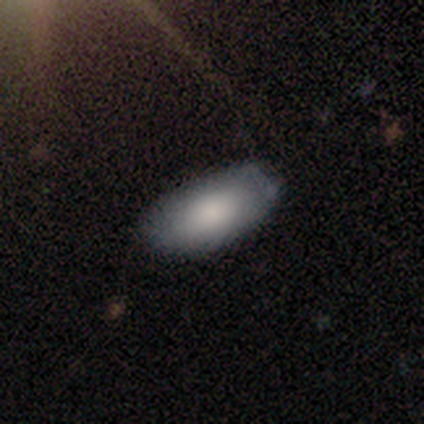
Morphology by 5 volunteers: This appears to be a smooth galaxy with no disk features (100%) that is in between round and cigar-shaped (100%). Merging: none (60%).